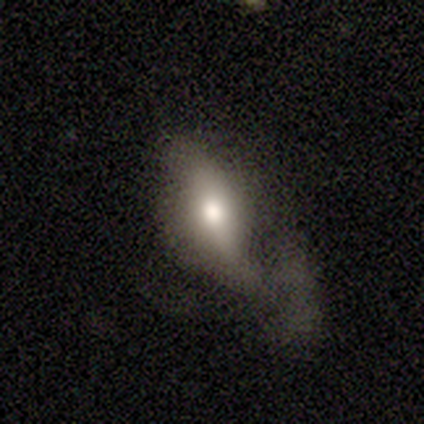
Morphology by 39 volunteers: Smooth or featured?
  - smooth: 62% *
  - featured or disk: 33%
  - star or artifact: 5%
How rounded?
  - in between: 92% *
  - round: 4%
  - cigar-shaped: 4%
Merging?
  - major disturbance: 49% *
  - none: 30%
  - minor disturbance: 22%
  - merger: 0%